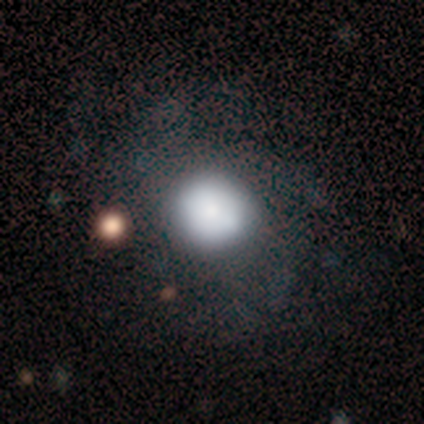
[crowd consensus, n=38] smooth 68%, featured or disk 21%, star or artifact 11%. Down the decision tree: how rounded — round (81%); merging — none (68%).